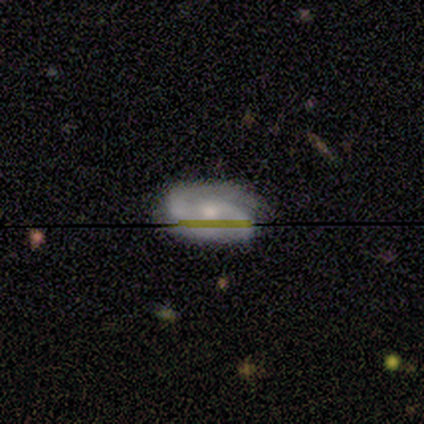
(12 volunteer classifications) Volunteers were most divided on "bar" (2-way tie): weak: 38%, no: 38%, strong: 25%. More confident: spiral arms — yes (100%); spiral arm count — 2 (88%); smooth or featured — featured or disk (83%); edge-on disk — no (80%); merging — none (75%); bulge size — small (62%); spiral winding — medium (50%).